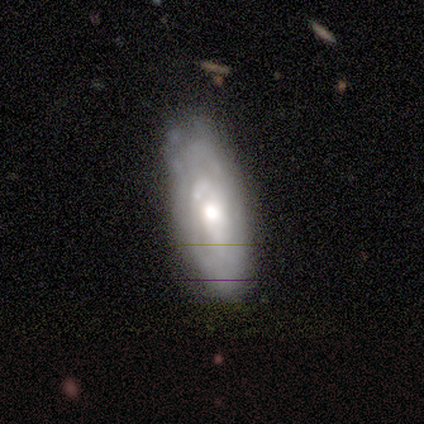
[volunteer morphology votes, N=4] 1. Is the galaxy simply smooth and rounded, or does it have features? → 75% featured or disk, 25% smooth, 0% star or artifact.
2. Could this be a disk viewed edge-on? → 67% no, 33% yes.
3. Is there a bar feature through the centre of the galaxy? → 100% no, 0% strong, 0% weak.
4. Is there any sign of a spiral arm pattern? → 100% no, 0% yes.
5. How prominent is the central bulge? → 100% moderate, 0% dominant, 0% large, 0% small, 0% none.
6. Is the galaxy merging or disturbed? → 100% none, 0% minor disturbance, 0% major disturbance, 0% merger.